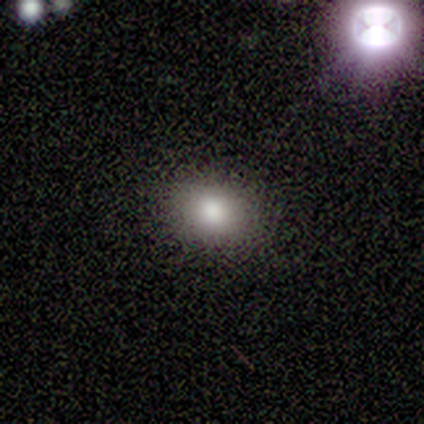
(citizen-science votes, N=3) Smooth or featured: smooth — 100%
How rounded: in between — 67% (round — 33%)
Merging: none — 100%